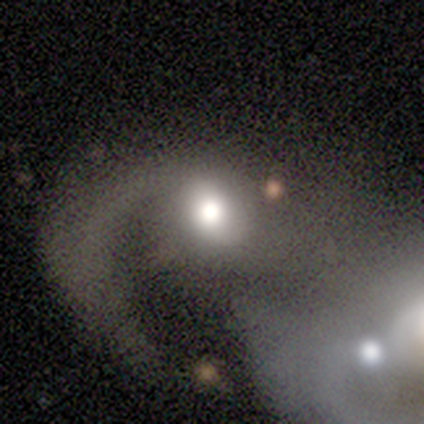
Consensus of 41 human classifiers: Q: Smooth or featured?
A: featured or disk (73%); runner-up: smooth (20%)
Q: Edge-on disk?
A: no (100%)
Q: Bar?
A: no (77%); runner-up: weak (23%)
Q: Spiral arms?
A: yes (63%); runner-up: no (37%)
Q: Spiral winding?
A: medium (53%); runner-up: loose (42%)
Q: Spiral arm count?
A: 1 (79%); runner-up: 2 (16%)
Q: Bulge size?
A: large (53%); runner-up: moderate (37%)
Q: Merging?
A: merger (63%); runner-up: major disturbance (21%)